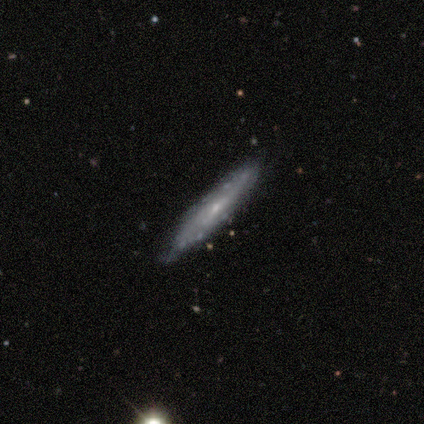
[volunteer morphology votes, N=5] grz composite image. It shows a smooth galaxy with no disk features (60%) that is cigar-shaped (100%). Merging: none (80%).